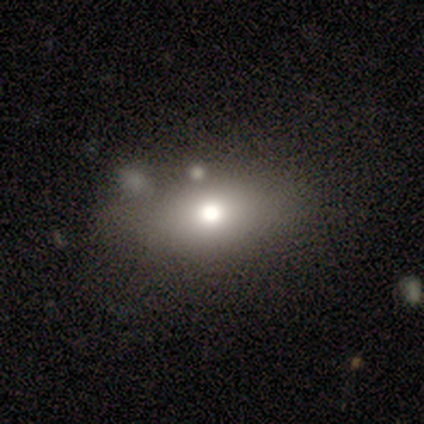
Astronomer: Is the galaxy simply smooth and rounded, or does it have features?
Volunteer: smooth — 60% (runner-up: featured or disk, 40%).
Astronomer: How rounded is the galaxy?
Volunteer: in between — 100%.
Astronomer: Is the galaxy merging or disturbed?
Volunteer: none — 60% (runner-up: minor disturbance, 40%).